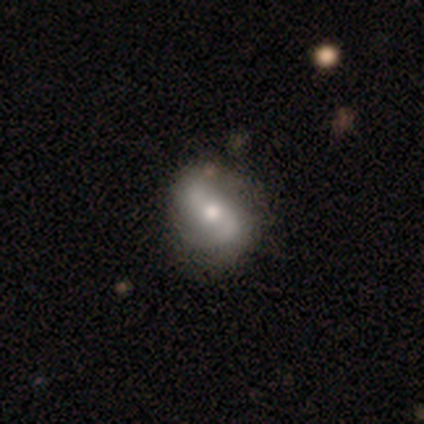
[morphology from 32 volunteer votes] Smooth or featured? featured or disk (69%)
Edge-on disk? no (100%)
Bar? no (50%)
Spiral arms? yes (82%)
Spiral winding? loose (44%)
Spiral arm count? 2 (83%)
Bulge size? moderate (59%)
Merging? none (64%)